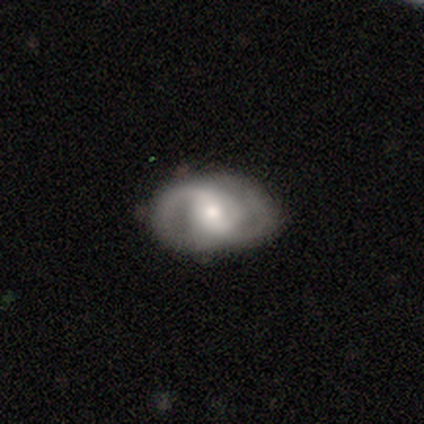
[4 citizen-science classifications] Volunteers were most divided on "bar" (2-way tie): weak: 50%, no: 50%, strong: 0%. More confident: spiral arms — yes (100%); spiral winding — medium (100%); spiral arm count — 2 (100%); bulge size — small (100%); merging — none (100%); smooth or featured — featured or disk (75%); edge-on disk — no (67%).